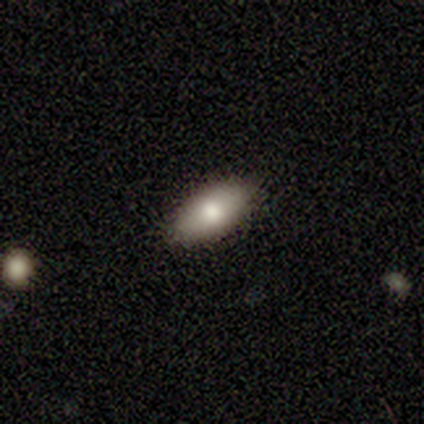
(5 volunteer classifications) Volunteers were most divided on "merging": none: 60%, minor disturbance: 40%, major disturbance: 0%, merger: 0%. More confident: smooth or featured — smooth (80%); how rounded — in between (75%).